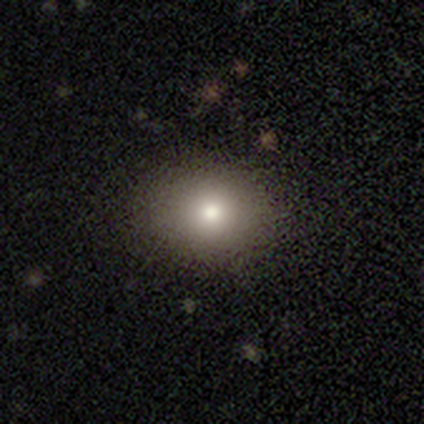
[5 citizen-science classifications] smooth-or-featured: smooth: 80% | featured or disk: 20% | star or artifact: 0%
  how-rounded: in between: 75% | round: 25% | cigar-shaped: 0%
  merging: none: 100% | minor disturbance: 0% | major disturbance: 0% | merger: 0%